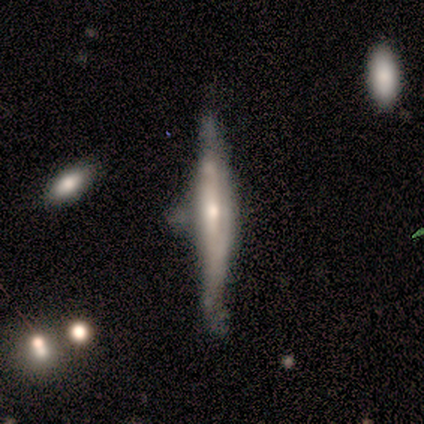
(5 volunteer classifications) Smooth or featured? smooth (60%)
How rounded? cigar-shaped (100%)
Merging? minor disturbance (60%)